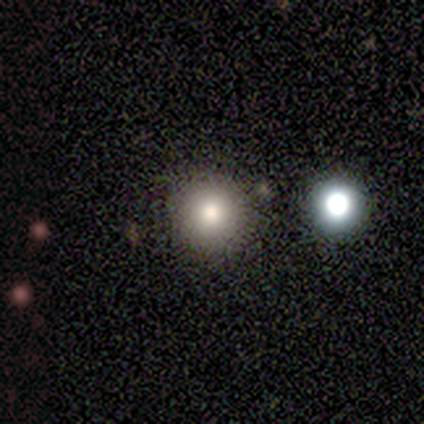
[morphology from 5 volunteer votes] Smooth or featured: smooth — 60% (featured or disk — 20%)
How rounded: round — 100%
Merging: none — 100%